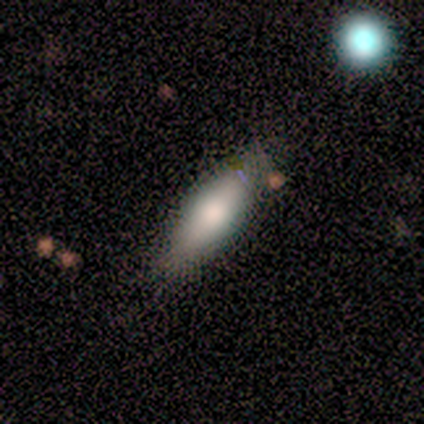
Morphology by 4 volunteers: smooth 75%, star or artifact 25%, featured or disk 0%. Down the decision tree: how rounded — cigar-shaped (67%); merging — none (100%).